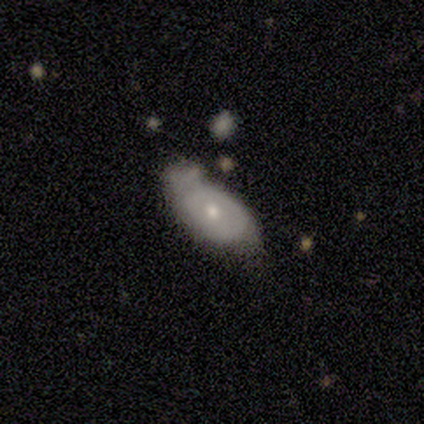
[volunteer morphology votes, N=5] This is likely a featured or disk galaxy (60%). It is likely not viewed edge-on (67%). Bar: clearly no (100%). Spiral arm pattern: clearly no (100%). Central bulge: possibly moderate (50%, tied with small). Merging: clearly minor disturbance (80%).